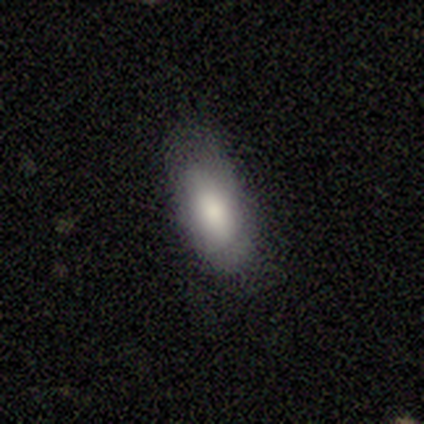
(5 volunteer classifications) A smooth galaxy with no disk features (100%) that is in between round and cigar-shaped (40%, tied with cigar-shaped).

Vote fractions:
- Smooth or featured? smooth: 100% / featured or disk: 0% / star or artifact: 0%
- How rounded? in between: 40% (tied) / cigar-shaped: 40% (tied) / round: 20%
- Merging? none: 80% / major disturbance: 20% / minor disturbance: 0% / merger: 0%